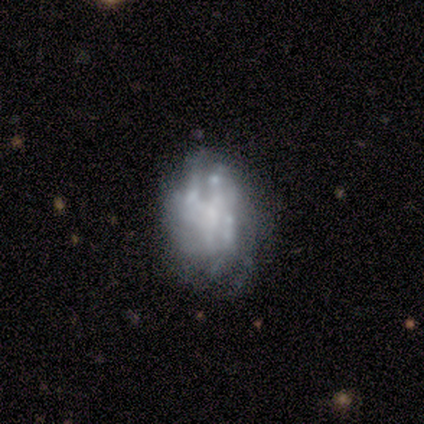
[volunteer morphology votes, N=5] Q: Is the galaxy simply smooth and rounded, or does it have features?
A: featured or disk — 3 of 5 (60%).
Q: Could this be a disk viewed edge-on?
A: no — 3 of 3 (100%).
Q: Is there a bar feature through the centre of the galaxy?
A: no — 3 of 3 (100%).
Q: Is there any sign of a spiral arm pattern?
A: no — 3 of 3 (100%).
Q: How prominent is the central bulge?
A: small — 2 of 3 (67%).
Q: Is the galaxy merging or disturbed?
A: minor disturbance — 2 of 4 (50%).